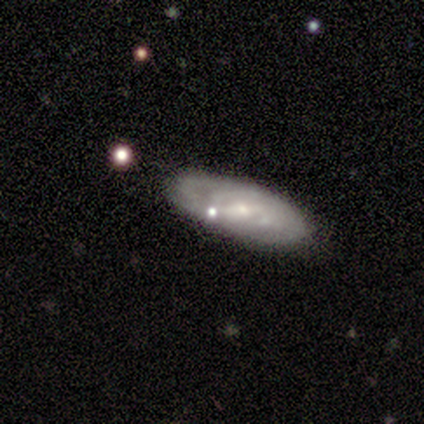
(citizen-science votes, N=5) A featured or disk galaxy (80%) with a weak bar (67%), tight (67%) spiral arms (100%) and a small central bulge (67%).

Vote fractions:
- Smooth or featured? featured or disk: 80% / smooth: 20% / star or artifact: 0%
- Edge-on disk? no: 75% / yes: 25%
- Bar? weak: 67% / no: 33% / strong: 0%
- Spiral arms? yes: 100% / no: 0%
- Spiral winding? tight: 67% / medium: 33% / loose: 0%
- Spiral arm count? can't tell: 100% / 1: 0% / 2: 0% / 3: 0% / 4: 0% / more than 4: 0%
- Bulge size? small: 67% / none: 33% / dominant: 0% / large: 0% / moderate: 0%
- Merging? none: 60% / minor disturbance: 40% / major disturbance: 0% / merger: 0%